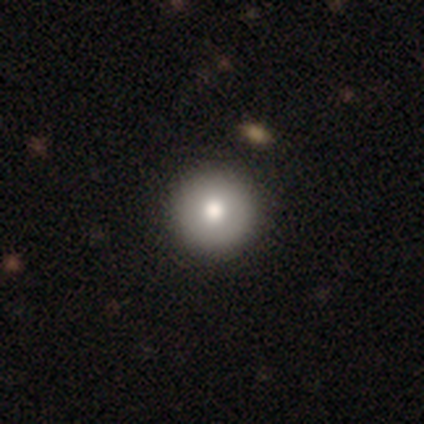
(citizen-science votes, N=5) Smooth or featured? smooth (80%)
How rounded? round (100%)
Merging? none (100%)